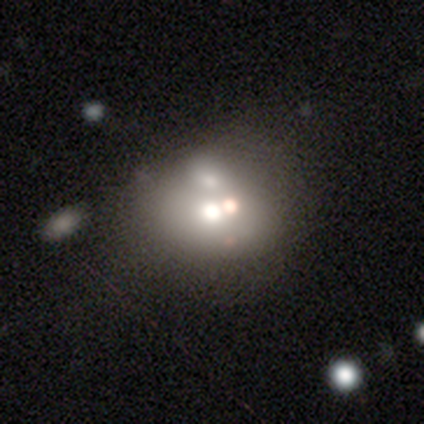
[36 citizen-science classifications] This appears to be a smooth galaxy with no disk features (58%) that is round (71%). Merging: merger (56%).